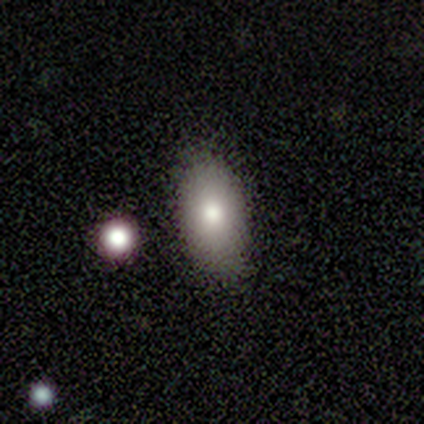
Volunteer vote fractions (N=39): Smooth or featured? 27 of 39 (69%) said smooth. How rounded? 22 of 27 (81%) said in between. Merging? 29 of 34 (85%) said none.